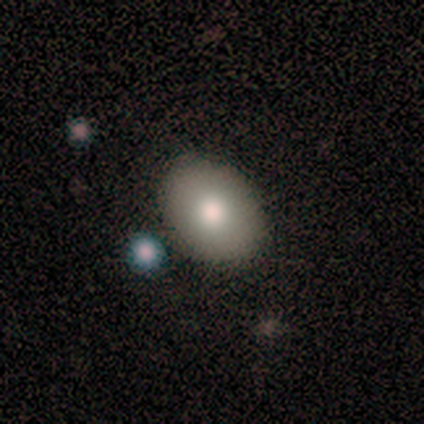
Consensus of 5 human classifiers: Overall: smooth (60%; featured or disk 40%). How rounded: round (67%; in between 33%). Merging: none (80%).